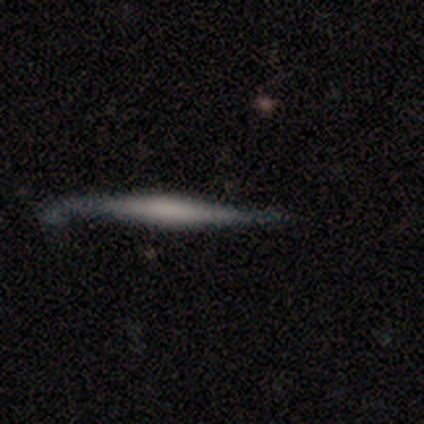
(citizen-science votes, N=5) This is clearly a smooth galaxy (80%). How rounded: clearly cigar-shaped (100%). Merging: marginally none (40%, tied with minor disturbance).